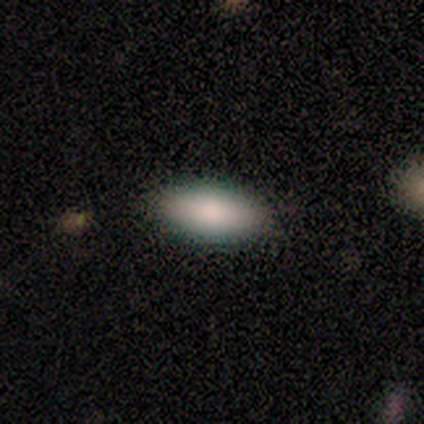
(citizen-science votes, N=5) Volunteers were most divided on "how rounded": in between: 80%, cigar-shaped: 20%, round: 0%. More confident: smooth or featured — smooth (100%); merging — none (100%).